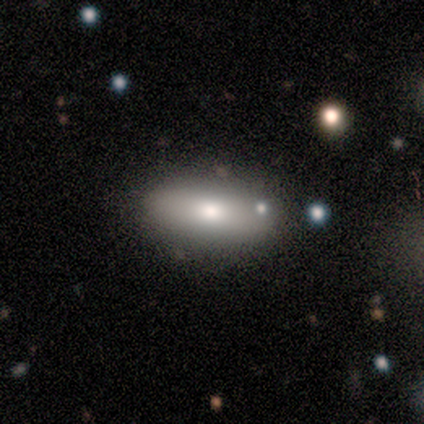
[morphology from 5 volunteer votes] This appears to be a smooth galaxy with no disk features (100%) that is cigar-shaped (60%). Merging: none (80%).